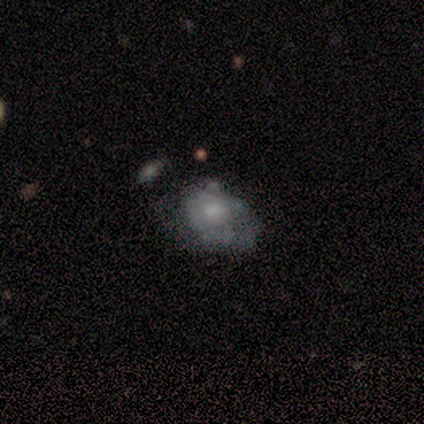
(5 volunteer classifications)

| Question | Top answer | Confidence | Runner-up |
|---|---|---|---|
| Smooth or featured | featured or disk | 60% | smooth (20%) |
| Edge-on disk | no | 100% | — |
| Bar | no | 67% | weak (33%) |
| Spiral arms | no | 100% | — |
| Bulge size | moderate | 67% | none (33%) |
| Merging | major disturbance | 75% | none (25%) |